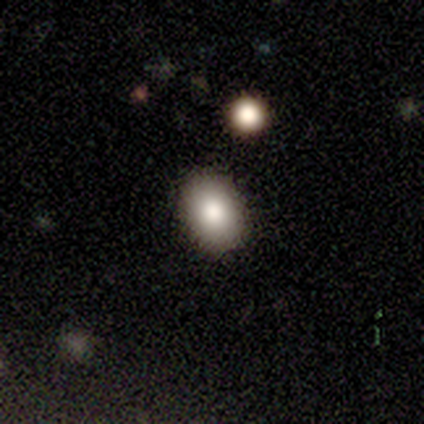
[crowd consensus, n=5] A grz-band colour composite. It shows a smooth galaxy with no disk features (80%) that is in between round and cigar-shaped (100%). Merging: none (75%).